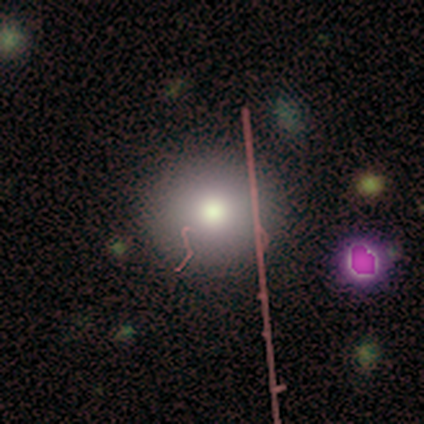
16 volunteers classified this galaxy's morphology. Overall: smooth (75%). How rounded: round (92%). Merging: none (85%).